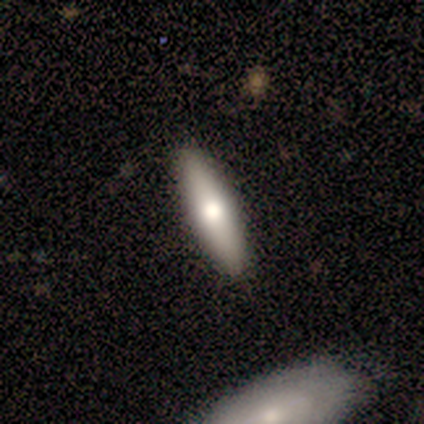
A smooth galaxy with no disk features (75%) that is in between round and cigar-shaped (67%).

Vote fractions:
- Smooth or featured? smooth: 75% / featured or disk: 25% / star or artifact: 0%
- How rounded? in between: 67% / cigar-shaped: 33% / round: 0%
- Merging? none: 100% / minor disturbance: 0% / major disturbance: 0% / merger: 0%